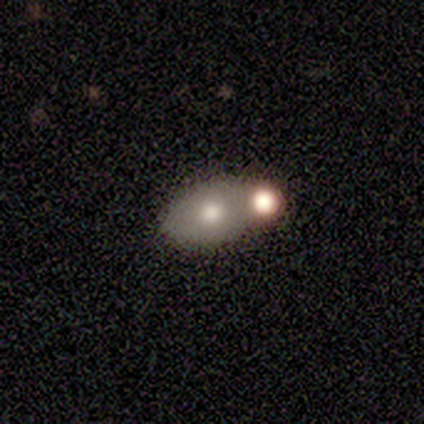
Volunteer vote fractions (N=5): Smooth or featured?
  - smooth: 40% * (tied)
  - featured or disk: 40% * (tied)
  - star or artifact: 20%
How rounded?
  - in between: 100% *
  - round: 0%
  - cigar-shaped: 0%
Merging?
  - merger: 50% *
  - none: 25%
  - minor disturbance: 25%
  - major disturbance: 0%